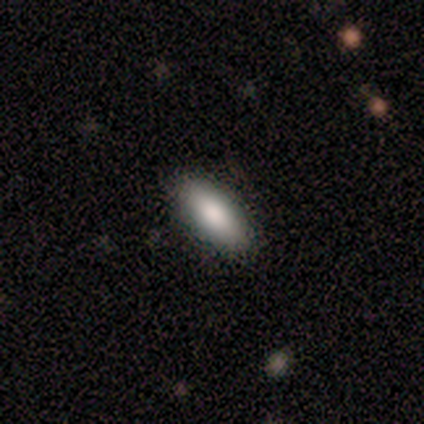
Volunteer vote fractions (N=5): Overall: smooth (80%). How rounded: in between (100%). Merging: none (80%).